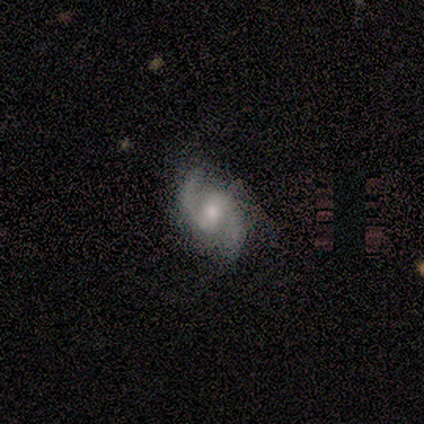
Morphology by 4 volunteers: This is clearly a featured or disk galaxy (100%). It is clearly not viewed edge-on (100%). Bar: likely weak (75%). Spiral arm pattern: clearly yes (100%). Spiral arm count: clearly 2 (100%). Spiral winding: likely medium (75%). Central bulge: clearly moderate (100%). Merging: clearly none (100%).